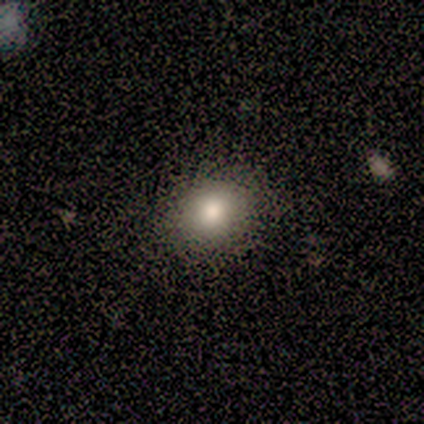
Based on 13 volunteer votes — Smooth or featured? 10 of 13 (77%) said smooth. How rounded? 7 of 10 (70%) said round. Merging? 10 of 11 (91%) said none.